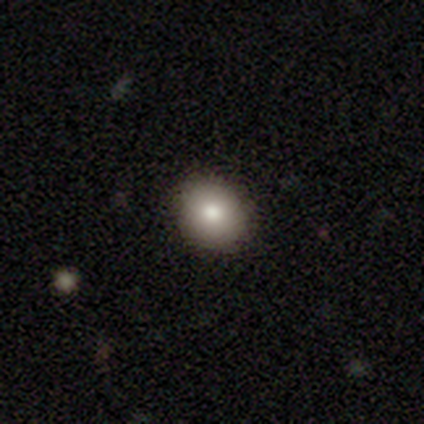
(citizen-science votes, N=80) A smooth galaxy with no disk features (82%) that is round (79%).

Vote fractions:
- Smooth or featured? smooth: 82% / featured or disk: 11% / star or artifact: 6%
- How rounded? round: 79% / in between: 21% / cigar-shaped: 0%
- Merging? none: 47% / minor disturbance: 5% / merger: 4% / major disturbance: 0%